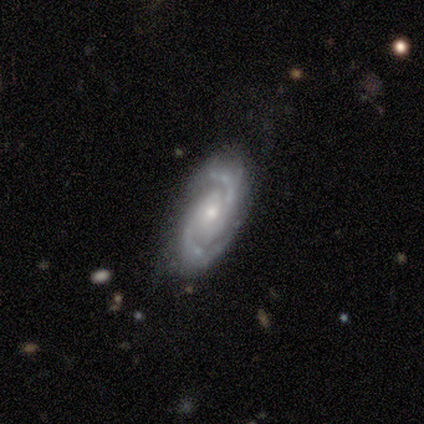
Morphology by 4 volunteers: Q: Smooth or featured?
A: featured or disk (100%)
Q: Edge-on disk?
A: no (75%); runner-up: yes (25%)
Q: Bar?
A: no (67%); runner-up: weak (33%)
Q: Spiral arms?
A: yes (100%)
Q: Spiral winding?
A: tight (67%); runner-up: loose (33%)
Q: Spiral arm count?
A: 2 (100%)
Q: Bulge size?
A: small (100%)
Q: Merging?
A: none (75%); runner-up: minor disturbance (25%)